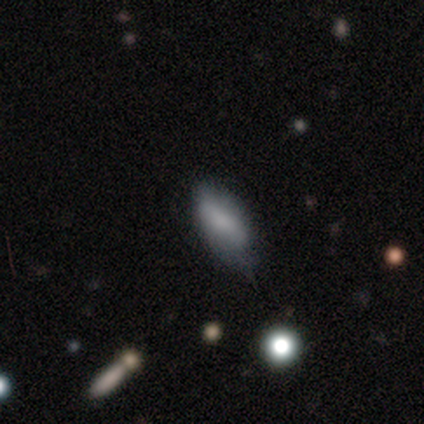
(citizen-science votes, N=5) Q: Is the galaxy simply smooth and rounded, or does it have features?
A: smooth — 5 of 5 (100%).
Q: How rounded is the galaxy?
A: in between — 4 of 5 (80%).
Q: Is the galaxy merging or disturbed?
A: none — 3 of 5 (60%).